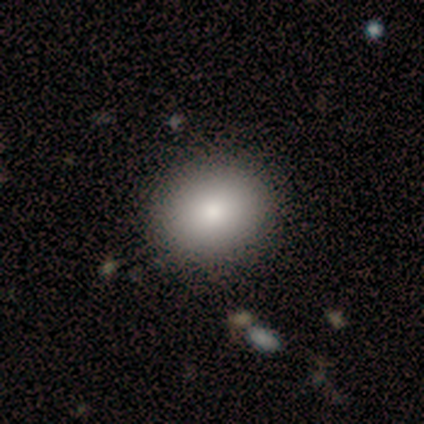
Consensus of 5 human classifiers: A smooth galaxy with no disk features (80%) that is in between round and cigar-shaped (75%). Merging: none (100%).